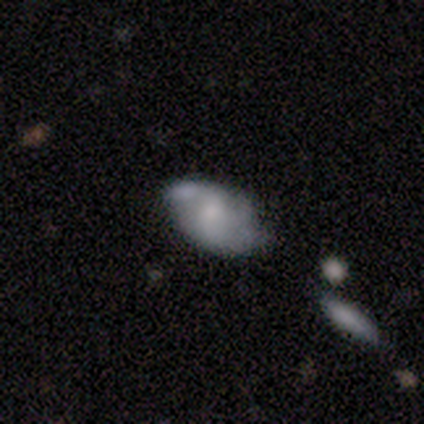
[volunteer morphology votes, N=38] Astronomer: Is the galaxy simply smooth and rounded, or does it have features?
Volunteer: featured or disk — 50% (runner-up: smooth, 45%).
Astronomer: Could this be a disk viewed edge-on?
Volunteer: no — 100%.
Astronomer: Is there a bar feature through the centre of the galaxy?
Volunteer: no — 53% (runner-up: weak, 37%).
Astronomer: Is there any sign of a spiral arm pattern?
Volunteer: yes — 63%.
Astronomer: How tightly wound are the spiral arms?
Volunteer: loose — 50% (runner-up: medium, 42%).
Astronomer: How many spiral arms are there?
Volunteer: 2 — 75%.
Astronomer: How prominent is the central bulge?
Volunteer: none — 42% (runner-up: small, 37%).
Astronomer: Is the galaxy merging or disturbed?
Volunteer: none — 53% (runner-up: minor disturbance, 33%).